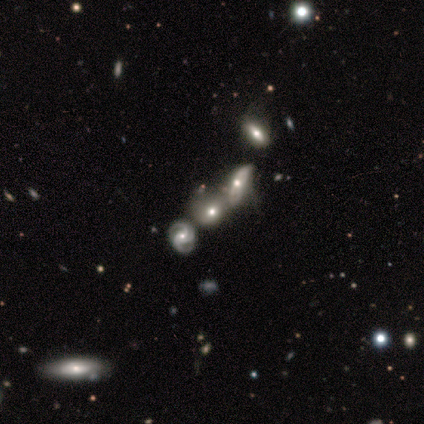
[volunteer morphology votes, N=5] Smooth or featured: smooth — 60% (featured or disk — 40%)
How rounded: round — 100%
Merging: merger — 40% (none — 20%)